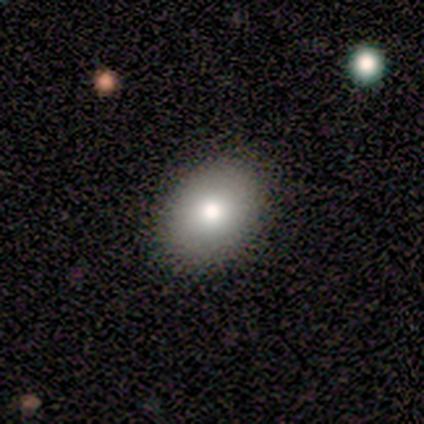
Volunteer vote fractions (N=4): A smooth galaxy with no disk features (75%) that is in between round and cigar-shaped (67%). Merging: none (75%).